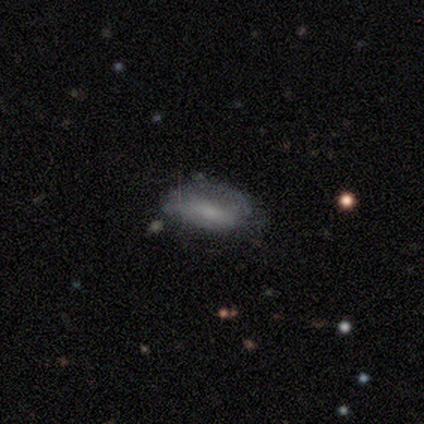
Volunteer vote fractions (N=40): A smooth galaxy with no disk features (52%) that is in between round and cigar-shaped (90%). Merging: none (50%).